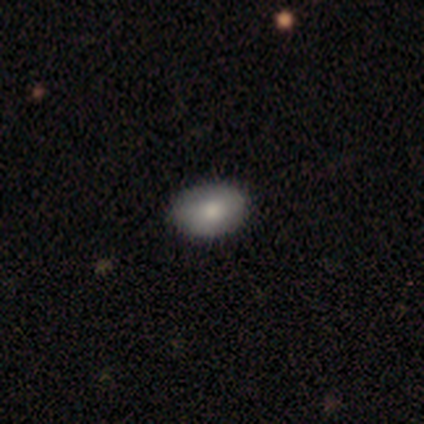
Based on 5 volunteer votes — Smooth or featured? smooth (60%)
How rounded? in between (100%)
Merging? none (100%)